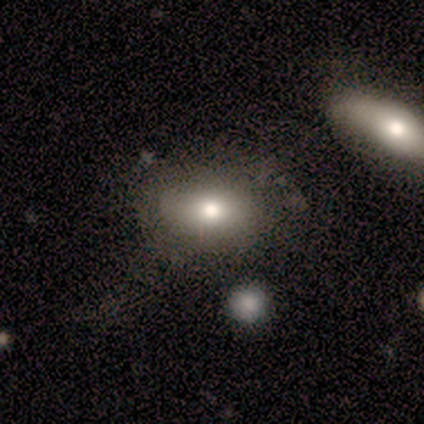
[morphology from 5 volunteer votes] Q: Smooth or featured?
A: smooth (100%)
Q: How rounded?
A: in between (100%)
Q: Merging?
A: none (80%); runner-up: minor disturbance (20%)